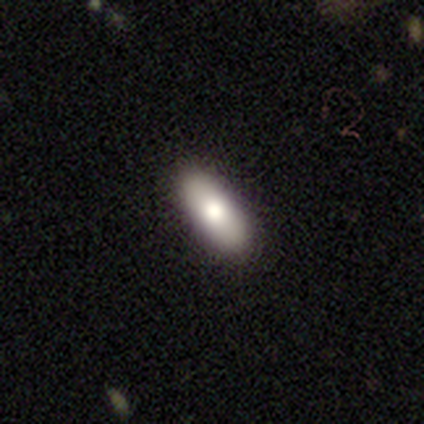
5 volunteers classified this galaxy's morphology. type=smooth (80%); roundness=in between (100%); merging=none (100%).